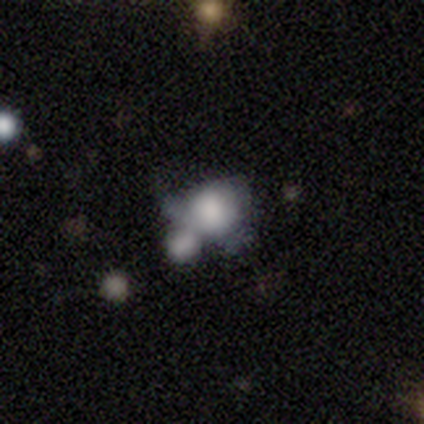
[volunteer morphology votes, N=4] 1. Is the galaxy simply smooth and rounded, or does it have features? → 50% smooth, 25% featured or disk, 25% star or artifact.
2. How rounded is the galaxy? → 50% round (tied), 50% in between (tied), 0% cigar-shaped.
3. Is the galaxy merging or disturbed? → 100% merger, 0% none, 0% minor disturbance, 0% major disturbance.